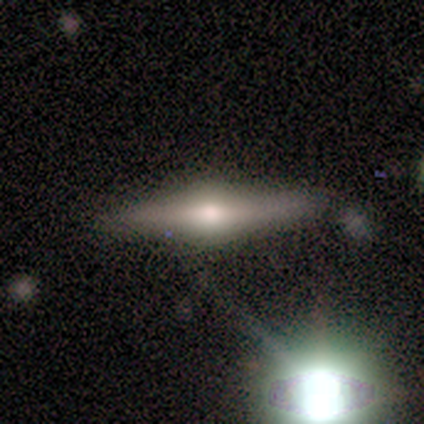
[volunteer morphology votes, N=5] Overall: featured or disk (80%). Edge-on disk: yes (100%). Edge-on bulge: rounded (100%). Merging: none (80%).